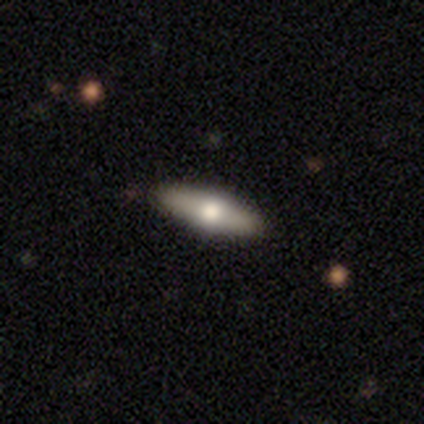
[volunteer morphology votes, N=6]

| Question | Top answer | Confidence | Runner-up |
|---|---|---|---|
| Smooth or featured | smooth | 67% | featured or disk (33%) |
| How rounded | in between | 75% | cigar-shaped (25%) |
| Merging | none | 100% | — |